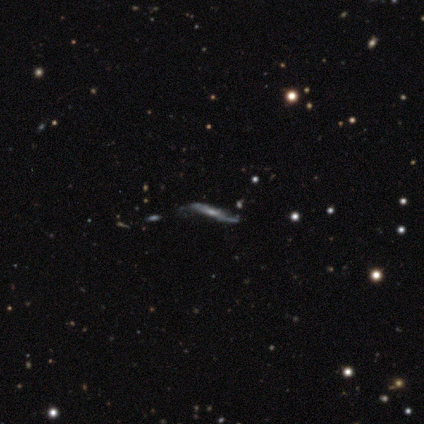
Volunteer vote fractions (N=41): smooth-or-featured: featured or disk: 63% | smooth: 29% | star or artifact: 7%
  disk-edge-on: yes: 77% | no: 23%
    edge-on-bulge: none: 50% | rounded: 40% | boxy: 10%
  merging: none: 63% | minor disturbance: 21% | major disturbance: 13% | merger: 3%